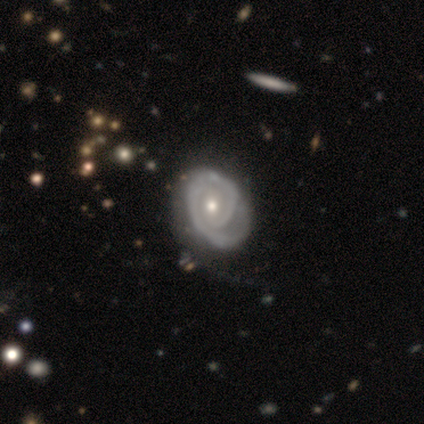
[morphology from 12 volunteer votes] featured or disk 100%, smooth 0%, star or artifact 0%. Down the decision tree: edge-on disk — no (100%); bar — no (67%); spiral arms — yes (100%); spiral arm count — 1 (83%); spiral winding — tight (83%); bulge size — moderate (67%); merging — none (50%).